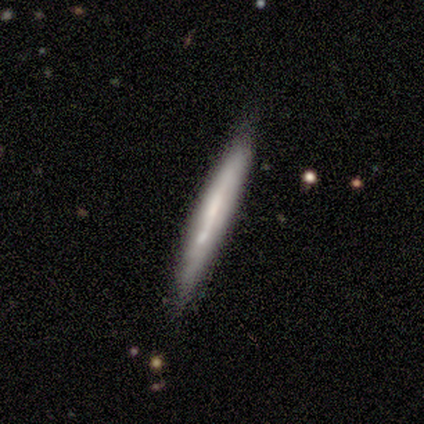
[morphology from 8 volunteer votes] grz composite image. It shows a smooth galaxy with no disk features (50%, tied with featured or disk) that is cigar-shaped (100%). Merging: none (88%).